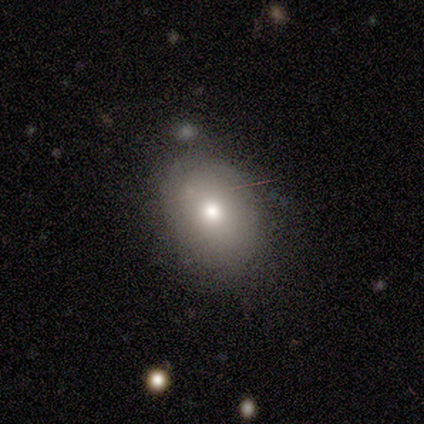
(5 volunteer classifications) Smooth or featured?
  - smooth: 60% *
  - featured or disk: 20%
  - star or artifact: 20%
How rounded?
  - in between: 100% *
  - round: 0%
  - cigar-shaped: 0%
Merging?
  - none: 100% *
  - minor disturbance: 0%
  - major disturbance: 0%
  - merger: 0%